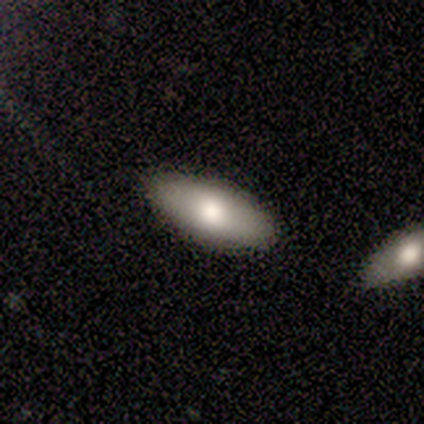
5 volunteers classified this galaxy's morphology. type=smooth (80%); roundness=in between (50%, tied with cigar-shaped); merging=none (75%).